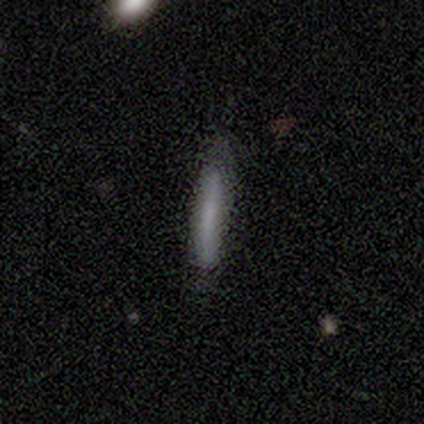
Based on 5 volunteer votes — smooth_or_featured: smooth (p=1.00)
how_rounded: cigar-shaped (p=1.00)
merging: none (p=1.00)